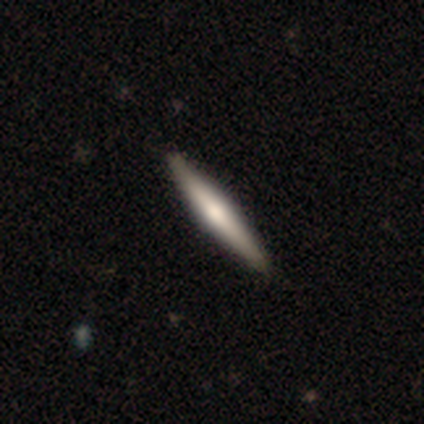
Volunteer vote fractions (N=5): A featured or disk galaxy (40%, tied with star or artifact) viewed edge-on (100%) with a rounded central bulge (100%).

Vote fractions:
- Smooth or featured? featured or disk: 40% (tied) / star or artifact: 40% (tied) / smooth: 20%
- Edge-on disk? yes: 100% / no: 0%
- Edge-on bulge? rounded: 100% / boxy: 0% / none: 0%
- Merging? none: 100% / minor disturbance: 0% / major disturbance: 0% / merger: 0%